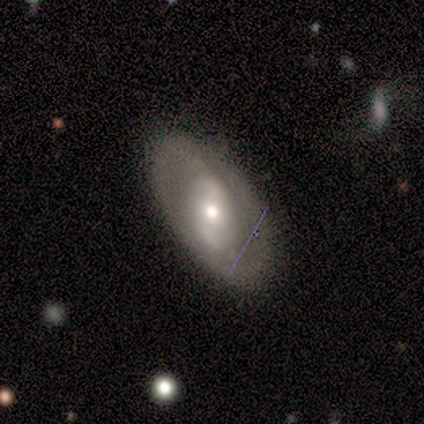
Morphology: type=featured or disk (60%); edge-on=no (100%); bar=no (67%); spiral arms=yes (67%); winding=tight (50%, tied with loose); arm count=2 (50%, tied with can't tell); bulge=moderate (100%); merging=none (60%).